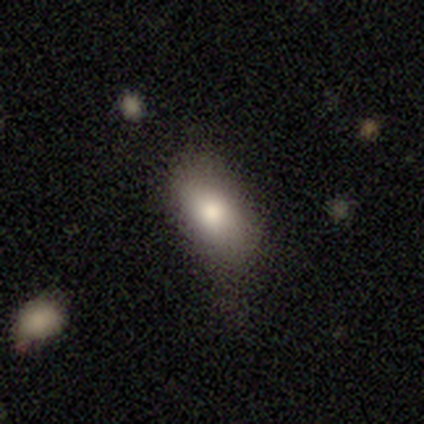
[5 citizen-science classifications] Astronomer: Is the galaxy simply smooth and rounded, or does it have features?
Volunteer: smooth — 80%.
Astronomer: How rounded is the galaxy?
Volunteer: in between — 75%.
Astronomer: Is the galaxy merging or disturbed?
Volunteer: none — 80%.